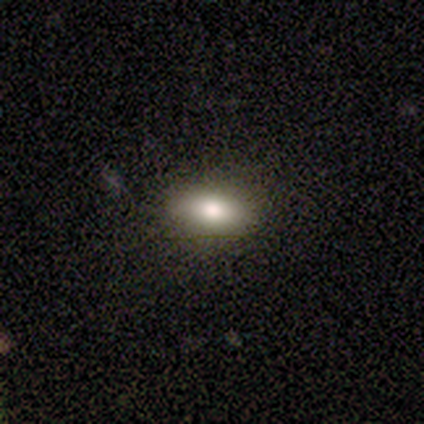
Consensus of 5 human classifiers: Smooth or featured: smooth — 80% (star or artifact — 20%)
How rounded: in between — 100%
Merging: none — 75% (minor disturbance — 25%)